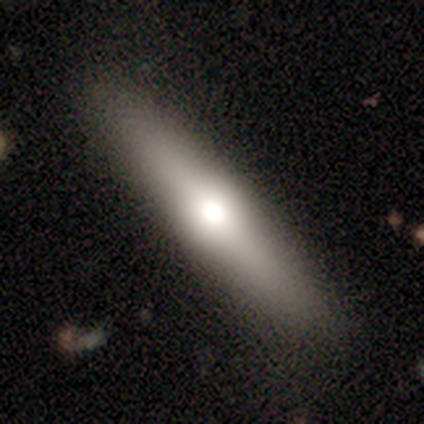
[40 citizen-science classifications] Smooth or featured? smooth (52%)
How rounded? cigar-shaped (90%)
Merging? none (94%)